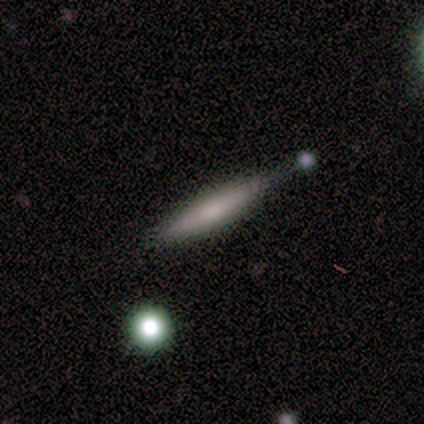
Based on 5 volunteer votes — Smooth or featured: smooth — 60% (featured or disk — 40%)
How rounded: cigar-shaped — 100%
Merging: none — 60% (minor disturbance — 20%)